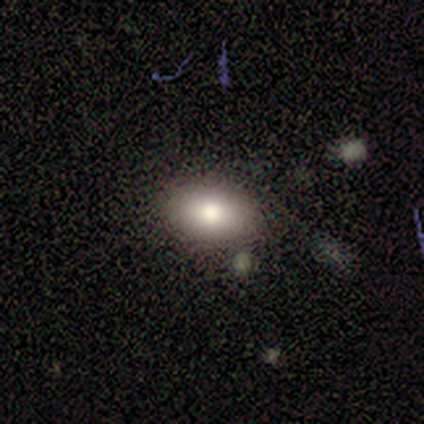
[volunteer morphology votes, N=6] Volunteers were most divided on "smooth or featured" (3-way tie): smooth: 33%, featured or disk: 33%, star or artifact: 33%; "how rounded" (2-way tie): round: 50%, in between: 50%, cigar-shaped: 0%. More confident: merging — none (100%).